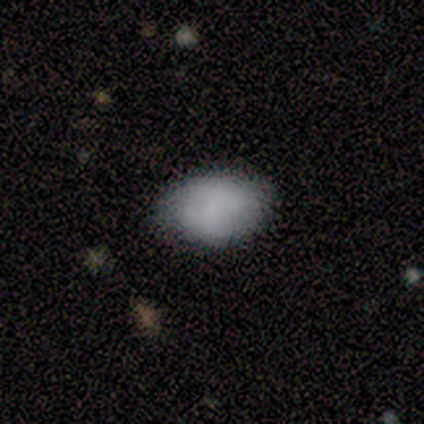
Volunteers were most divided on "merging": none: 76%, minor disturbance: 24%, major disturbance: 0%, merger: 0%. More confident: how rounded — in between (93%); smooth or featured — smooth (74%).